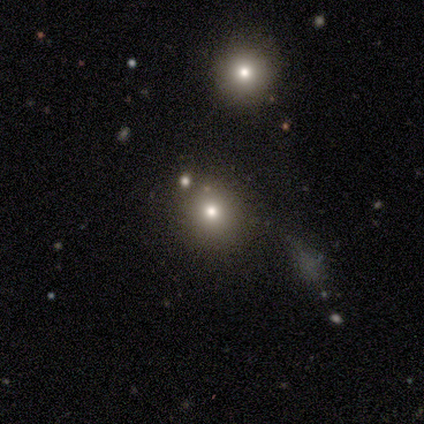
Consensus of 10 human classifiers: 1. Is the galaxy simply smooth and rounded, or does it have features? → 70% smooth, 20% featured or disk, 10% star or artifact.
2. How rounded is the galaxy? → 100% round, 0% in between, 0% cigar-shaped.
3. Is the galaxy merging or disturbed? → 89% none, 11% merger, 0% minor disturbance, 0% major disturbance.